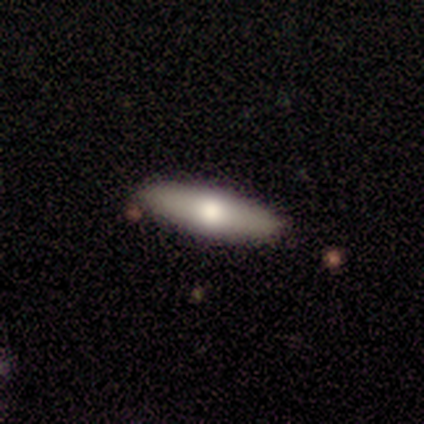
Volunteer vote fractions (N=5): A featured or disk galaxy (60%) viewed edge-on (67%) with a rounded central bulge (100%). Merging: none (80%).